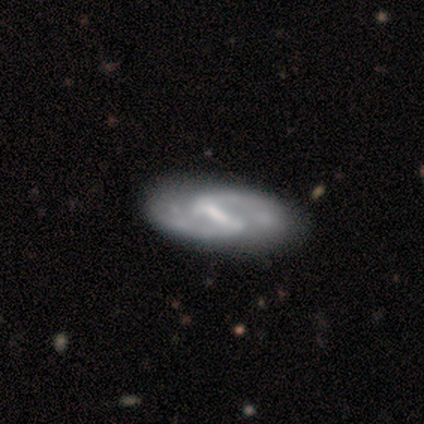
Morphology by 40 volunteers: This is clearly a featured or disk galaxy (88%). It is clearly not viewed edge-on (94%). Bar: clearly strong (82%). Spiral arm pattern: clearly yes (97%). Spiral arm count: clearly 2 (97%). Spiral winding: likely medium (69%). Central bulge: marginally none (36%). Merging: likely none (76%).